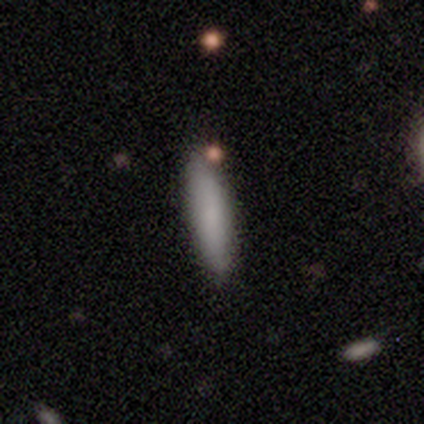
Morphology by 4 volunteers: This appears to be a smooth galaxy with no disk features (100%) that is cigar-shaped (100%). Merging: none (100%).